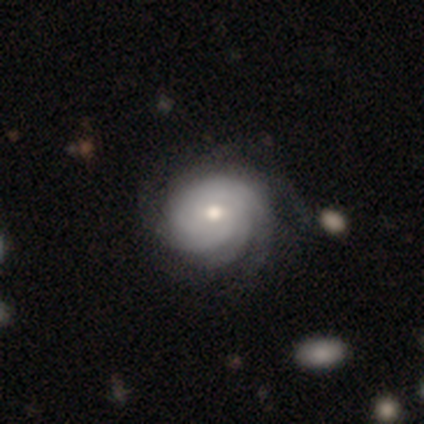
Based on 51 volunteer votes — This is clearly a featured or disk galaxy (90%). It is clearly not viewed edge-on (100%). Bar: likely no (70%). Spiral arm pattern: clearly yes (93%). Spiral arm count: marginally more than 4 (35%). Spiral winding: likely tight (74%). Central bulge: likely moderate (67%). Merging: likely none (70%).